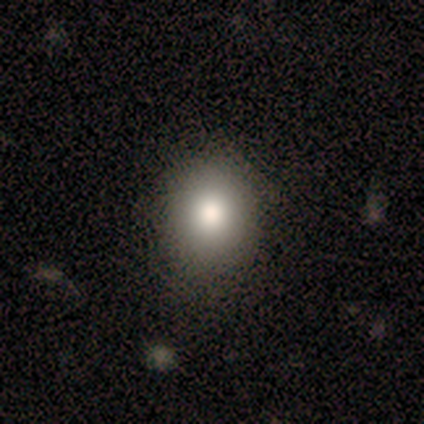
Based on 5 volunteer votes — A smooth galaxy with no disk features (100%) that is round (100%). Merging: none (80%).